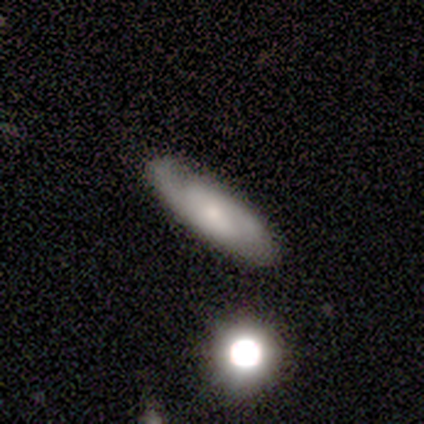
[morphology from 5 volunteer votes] This is likely a smooth galaxy (60%). How rounded: likely cigar-shaped (67%). Merging: likely minor disturbance (60%).